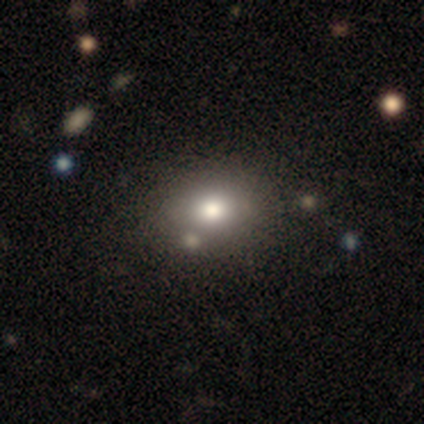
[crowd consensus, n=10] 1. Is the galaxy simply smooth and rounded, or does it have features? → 50% smooth, 40% featured or disk, 10% star or artifact.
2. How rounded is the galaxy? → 60% in between, 40% round, 0% cigar-shaped.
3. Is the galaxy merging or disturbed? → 89% none, 11% minor disturbance, 0% major disturbance, 0% merger.